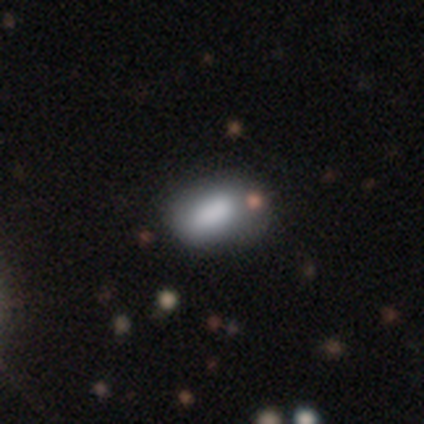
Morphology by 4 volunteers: Volunteers were most divided on "merging": none: 75%, minor disturbance: 25%, major disturbance: 0%, merger: 0%. More confident: smooth or featured — smooth (100%); how rounded — in between (100%).